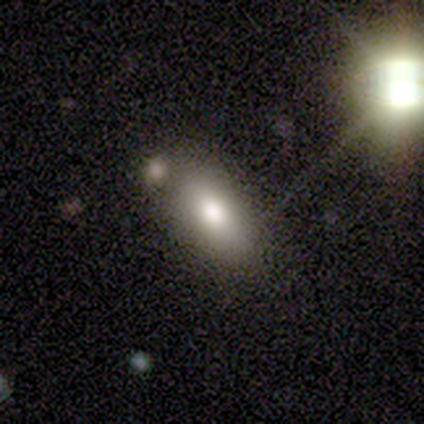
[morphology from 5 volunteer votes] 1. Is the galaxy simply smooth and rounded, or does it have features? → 100% smooth, 0% featured or disk, 0% star or artifact.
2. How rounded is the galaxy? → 100% in between, 0% round, 0% cigar-shaped.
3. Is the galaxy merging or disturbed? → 60% none, 40% minor disturbance, 0% major disturbance, 0% merger.